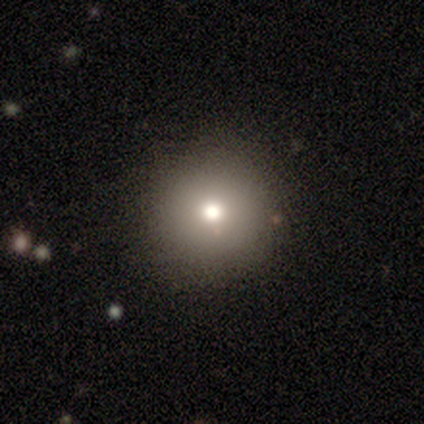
Volunteers were most divided on "smooth or featured": smooth: 82%, star or artifact: 10%, featured or disk: 8%. More confident: how rounded — round (97%); merging — none (94%).